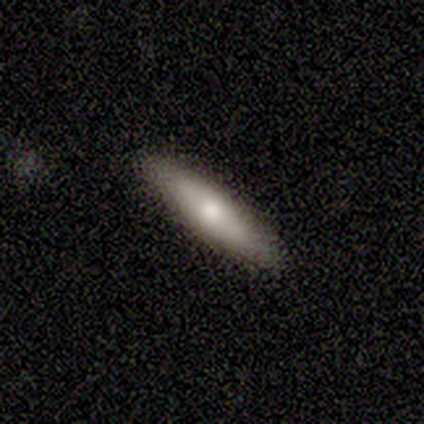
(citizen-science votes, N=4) smooth_or_featured: smooth (p=0.75) [alt: featured or disk p=0.25]
how_rounded: cigar-shaped (p=1.00)
merging: none (p=0.75) [alt: minor disturbance p=0.25]